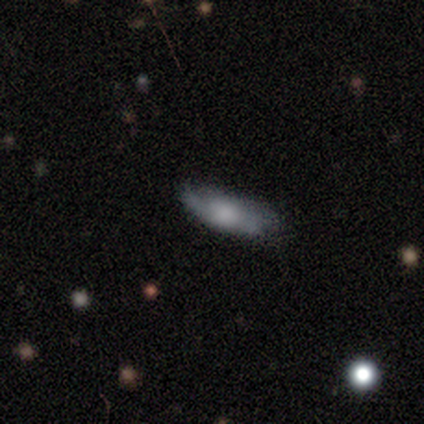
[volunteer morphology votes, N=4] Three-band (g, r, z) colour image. It shows a featured or disk galaxy (75%) with no bar (100%), 2 (100%) loose (100%) spiral arms (50%, tied with no) and a large central bulge (50%, tied with none). Merging: none (50%, tied with minor disturbance).